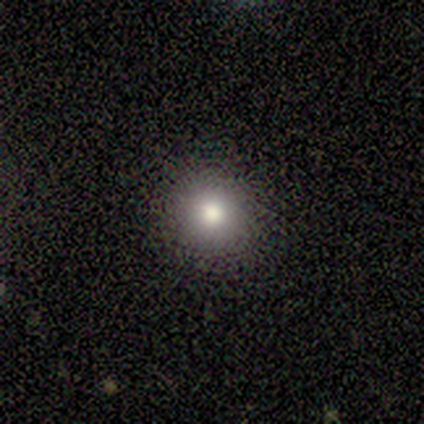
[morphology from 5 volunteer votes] smooth-or-featured: smooth: 80% | star or artifact: 20% | featured or disk: 0%
  how-rounded: round: 100% | in between: 0% | cigar-shaped: 0%
  merging: none: 100% | minor disturbance: 0% | major disturbance: 0% | merger: 0%